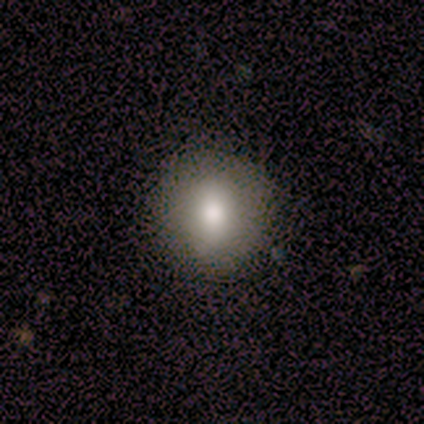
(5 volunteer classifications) Morphology: type=smooth (60%); roundness=round (100%); merging=none (100%).